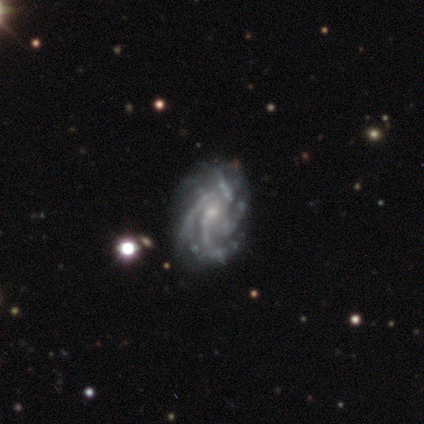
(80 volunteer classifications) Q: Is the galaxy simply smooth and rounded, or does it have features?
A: featured or disk — 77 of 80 (96%).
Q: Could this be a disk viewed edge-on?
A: no — 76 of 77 (99%).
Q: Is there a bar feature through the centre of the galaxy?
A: no — 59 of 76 (78%).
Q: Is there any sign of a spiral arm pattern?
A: yes — 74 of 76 (97%).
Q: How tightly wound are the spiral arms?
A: medium — 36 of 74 (49%).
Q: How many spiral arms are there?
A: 4 — 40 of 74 (54%).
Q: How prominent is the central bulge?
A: small — 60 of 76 (79%).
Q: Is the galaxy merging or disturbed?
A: none — 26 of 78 (33%).